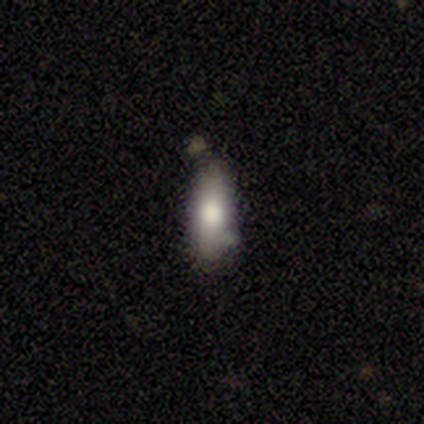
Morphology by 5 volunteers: A smooth galaxy with no disk features (80%) that is in between round and cigar-shaped (75%). Merging: none (60%).